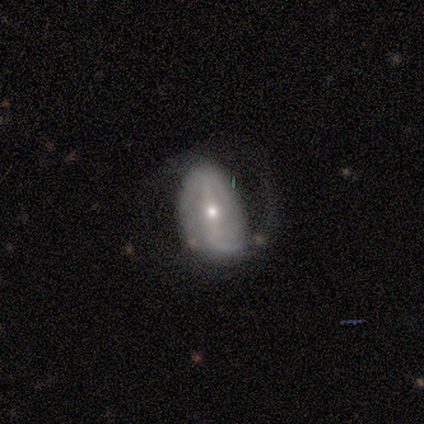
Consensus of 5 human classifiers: Volunteers were most divided on "bar" (3-way tie): strong: 33%, weak: 33%, no: 33%; "spiral arm count" (2-way tie): 4: 50%, can't tell: 50%, 1: 0%, 2: 0%, 3: 0%, more than 4: 0%; "merging" (2-way tie): none: 50%, major disturbance: 50%, minor disturbance: 0%, merger: 0%. More confident: edge-on disk — no (100%); spiral winding — medium (100%); spiral arms — yes (67%); bulge size — small (67%); smooth or featured — featured or disk (60%).